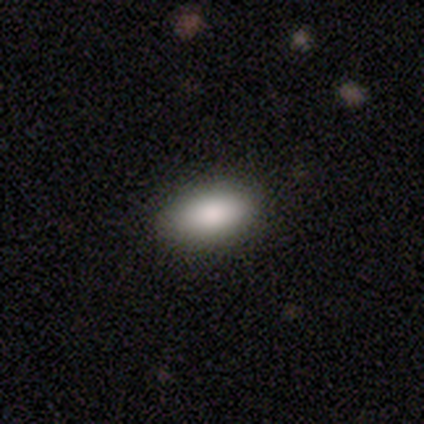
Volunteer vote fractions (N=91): Q: Smooth or featured?
A: smooth (89%); runner-up: featured or disk (7%)
Q: How rounded?
A: in between (90%); runner-up: round (6%)
Q: Merging?
A: none (91%); runner-up: minor disturbance (5%)